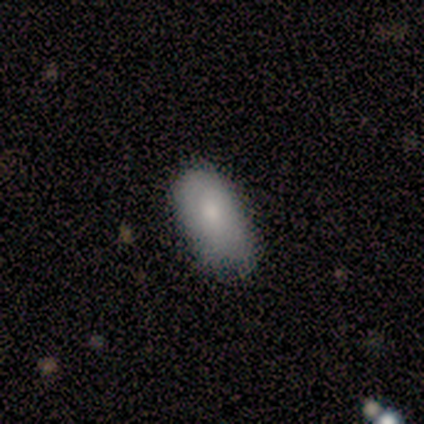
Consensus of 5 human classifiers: Smooth or featured: smooth — 100%
How rounded: in between — 100%
Merging: minor disturbance — 60% (none — 40%)